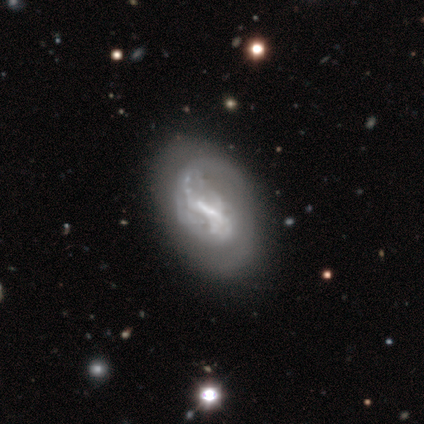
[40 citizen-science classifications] Volunteers were most divided on "bar" (2-way tie): strong: 36%, weak: 36%, no: 28%. Remaining: edge-on disk — no (100%); smooth or featured — featured or disk (90%); spiral arms — yes (64%); spiral winding — loose (39%); spiral arm count — 2 (39%); bulge size — none (39%); merging — none (38%).